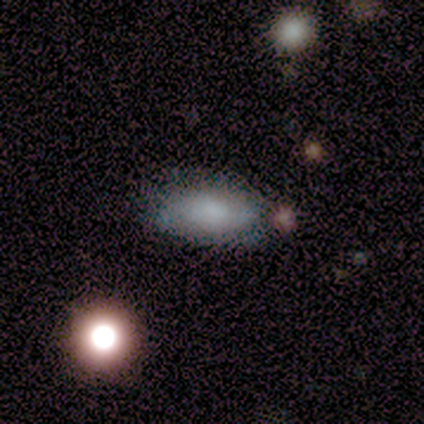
Smooth or featured: smooth — 67% (featured or disk — 25%)
How rounded: in between — 100%
Merging: none — 73% (major disturbance — 18%)